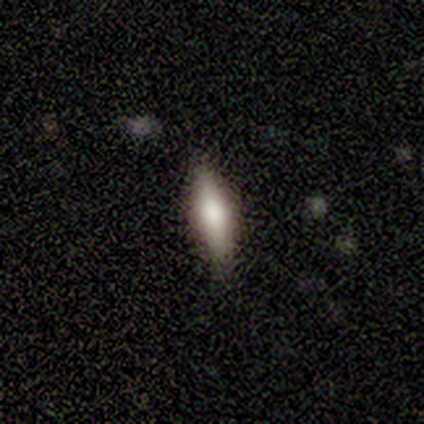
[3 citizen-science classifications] Smooth or featured?
  - smooth: 100% *
  - featured or disk: 0%
  - star or artifact: 0%
How rounded?
  - in between: 67% *
  - cigar-shaped: 33%
  - round: 0%
Merging?
  - none: 100% *
  - minor disturbance: 0%
  - major disturbance: 0%
  - merger: 0%